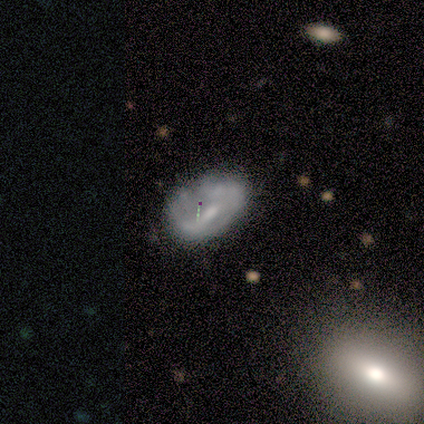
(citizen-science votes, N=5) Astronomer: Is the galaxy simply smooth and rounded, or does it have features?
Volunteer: featured or disk — 60%.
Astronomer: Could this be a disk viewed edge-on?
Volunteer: no — 100%.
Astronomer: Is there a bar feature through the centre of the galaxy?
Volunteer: strong — 33%, tied with weak and no at 33%.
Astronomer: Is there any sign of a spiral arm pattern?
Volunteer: no — 67%.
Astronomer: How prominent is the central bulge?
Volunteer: none — 67%.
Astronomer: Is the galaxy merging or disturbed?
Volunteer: none — 75%.